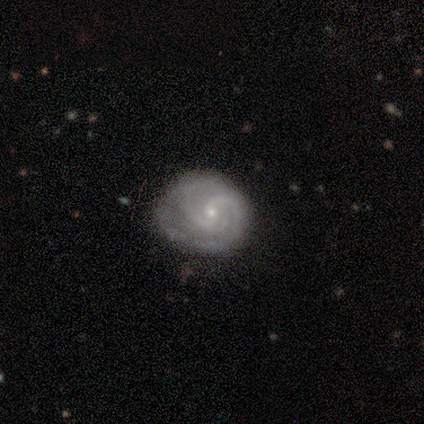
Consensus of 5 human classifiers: Morphology: type=featured or disk (80%); edge-on=no (100%); bar=no (75%); spiral arms=yes (100%); winding=medium (50%); arm count=2 (50%); bulge=small (100%); merging=none (60%).